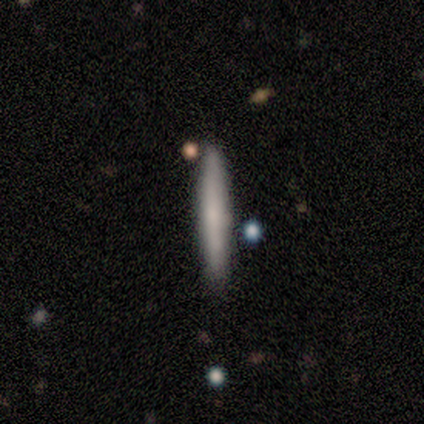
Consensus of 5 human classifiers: Q: Smooth or featured?
A: smooth (60%); runner-up: featured or disk (40%)
Q: How rounded?
A: cigar-shaped (100%)
Q: Merging?
A: none (100%)